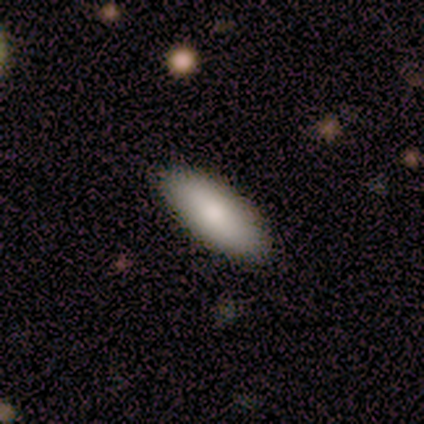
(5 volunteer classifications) Overall: smooth (100%). How rounded: cigar-shaped (60%; in between 40%). Merging: none (100%).